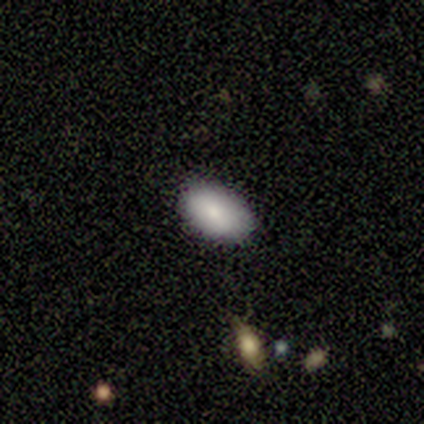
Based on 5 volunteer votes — Overall: smooth (80%). How rounded: in between (50%; round 25%). Merging: none (100%).